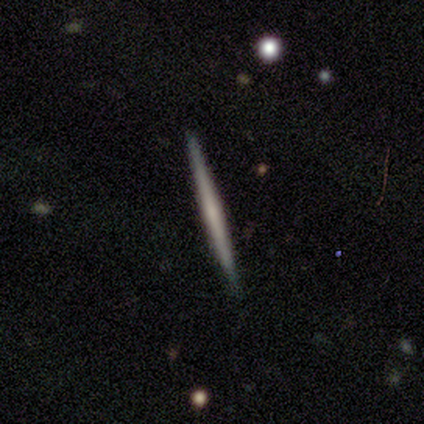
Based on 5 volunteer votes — A featured or disk galaxy (60%) viewed edge-on (100%) with no central bulge (100%). Merging: none (80%).